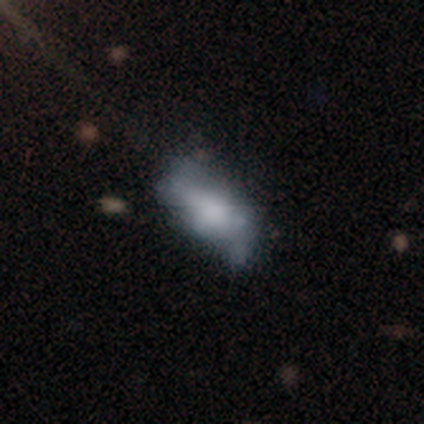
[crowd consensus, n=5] A featured or disk galaxy (80%) with no bar (100%), no spiral arms (75%) and no central bulge (75%). Merging: major disturbance (80%).